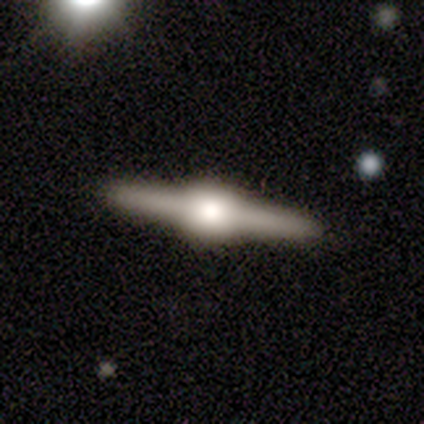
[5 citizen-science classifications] Volunteers were most divided on "smooth or featured": featured or disk: 80%, smooth: 20%, star or artifact: 0%. More confident: edge-on disk — yes (100%); edge-on bulge — rounded (100%); merging — none (100%).